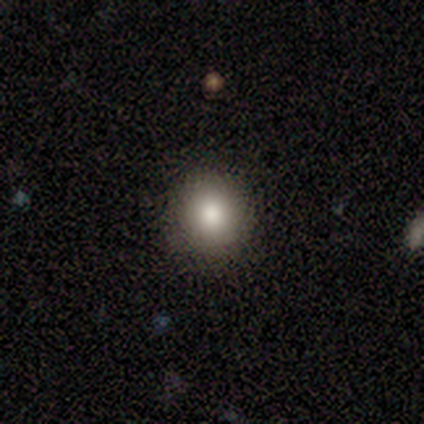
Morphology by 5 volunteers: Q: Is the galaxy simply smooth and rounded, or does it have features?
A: smooth — 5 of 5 (100%).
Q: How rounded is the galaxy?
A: round — 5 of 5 (100%).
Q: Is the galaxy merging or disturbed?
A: none — 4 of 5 (80%).